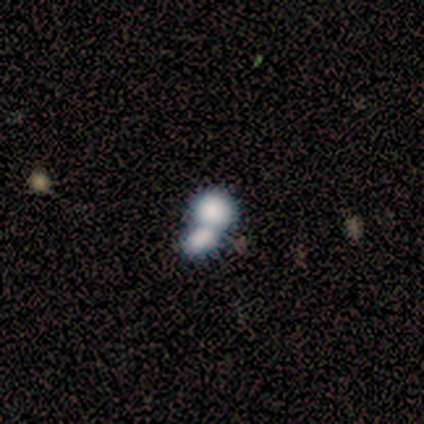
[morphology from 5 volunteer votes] Smooth or featured?
  - smooth: 80% *
  - star or artifact: 20%
  - featured or disk: 0%
How rounded?
  - round: 75% *
  - in between: 25%
  - cigar-shaped: 0%
Merging?
  - merger: 100% *
  - none: 0%
  - minor disturbance: 0%
  - major disturbance: 0%